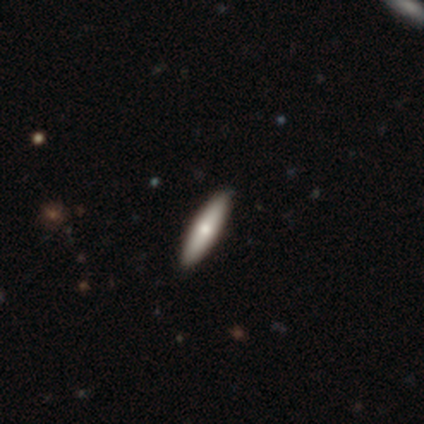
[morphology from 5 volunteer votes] Q: Smooth or featured?
A: smooth (60%); runner-up: featured or disk (20%)
Q: How rounded?
A: cigar-shaped (100%)
Q: Merging?
A: none (100%)